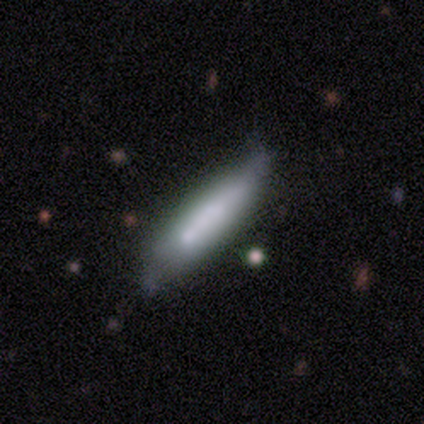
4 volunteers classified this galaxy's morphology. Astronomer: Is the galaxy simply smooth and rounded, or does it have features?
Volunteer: smooth — 50%, tied with star or artifact at 50%.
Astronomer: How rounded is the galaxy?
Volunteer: cigar-shaped — 100%.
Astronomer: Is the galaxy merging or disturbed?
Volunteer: minor disturbance — 100%.